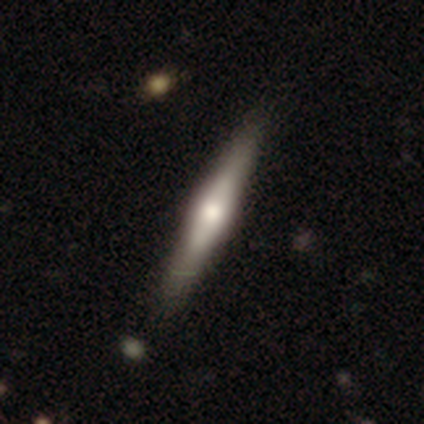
Q: Smooth or featured?
A: featured or disk (56%); runner-up: smooth (37%)
Q: Edge-on disk?
A: yes (91%); runner-up: no (9%)
Q: Edge-on bulge?
A: rounded (80%); runner-up: boxy (18%)
Q: Merging?
A: none (42%); runner-up: minor disturbance (10%)